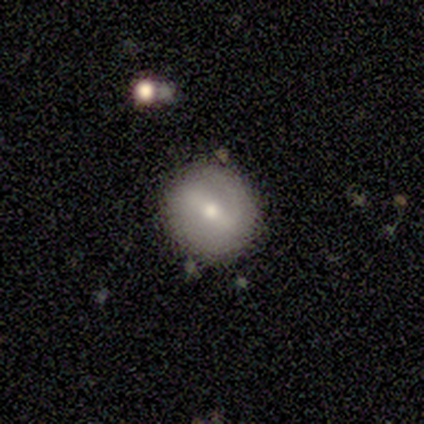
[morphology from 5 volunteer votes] Overall: featured or disk (60%; smooth 40%). Edge-on disk: no (100%). Bar: weak (67%; strong 33%). Spiral arms: no (100%). Bulge size: moderate (67%; small 33%). Merging: none (100%).